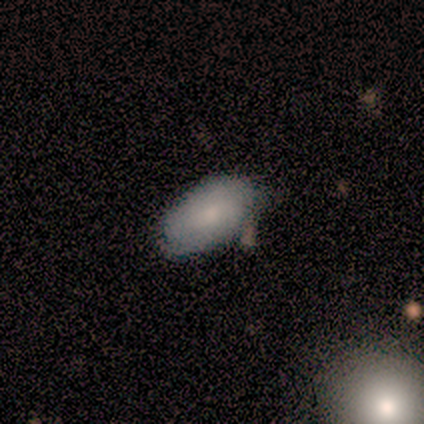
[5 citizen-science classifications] Overall: smooth (80%). How rounded: in between (100%). Merging: minor disturbance (60%; none 40%).